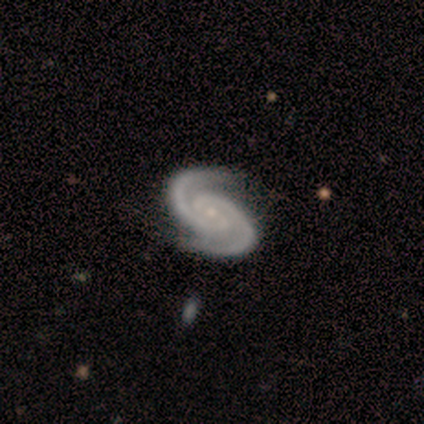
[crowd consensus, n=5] smooth-or-featured: featured or disk: 100% | smooth: 0% | star or artifact: 0%
  disk-edge-on: no: 80% | yes: 20%
    bar: no: 100% | strong: 0% | weak: 0%
    has-spiral-arms: yes: 100% | no: 0%
      spiral-winding: tight: 75% | medium: 25% | loose: 0%
      spiral-arm-count: 2: 100% | 1: 0% | 3: 0% | 4: 0% | more than 4: 0% | can't tell: 0%
    bulge-size: small: 100% | dominant: 0% | large: 0% | moderate: 0% | none: 0%
  merging: none: 80% | minor disturbance: 20% | major disturbance: 0% | merger: 0%